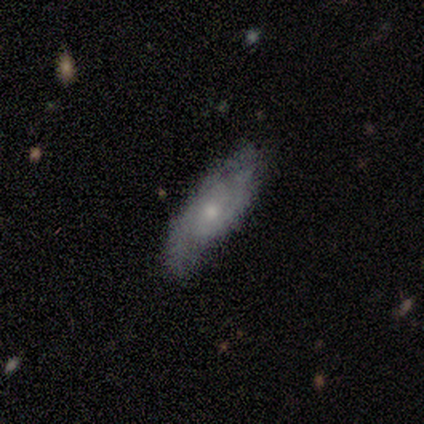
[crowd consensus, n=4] Smooth or featured: featured or disk — 100%
Edge-on disk: no — 100%
Bar: no — 100%
Spiral arms: yes — 75% (no — 25%)
Spiral winding: medium — 67% (loose — 33%)
Spiral arm count: 2 — 67% (can't tell — 33%)
Bulge size: small — 75% (moderate — 25%)
Merging: none — 100%